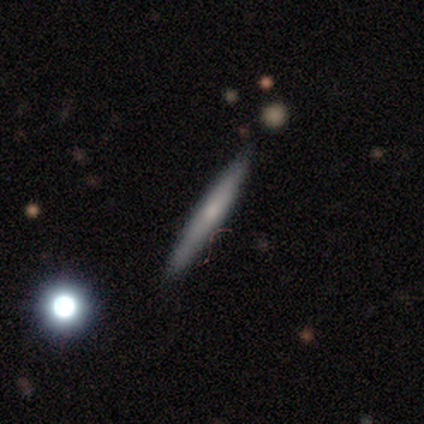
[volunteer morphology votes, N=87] Overall: smooth (48%; featured or disk 46%). How rounded: cigar-shaped (93%). Merging: none (84%).